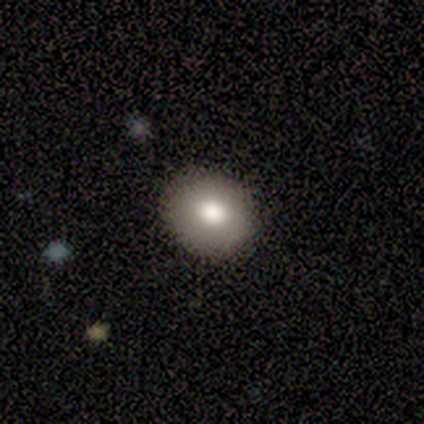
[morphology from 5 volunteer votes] smooth_or_featured: smooth (p=0.60) [alt: featured or disk p=0.40]
how_rounded: round (p=1.00)
merging: none (p=1.00)